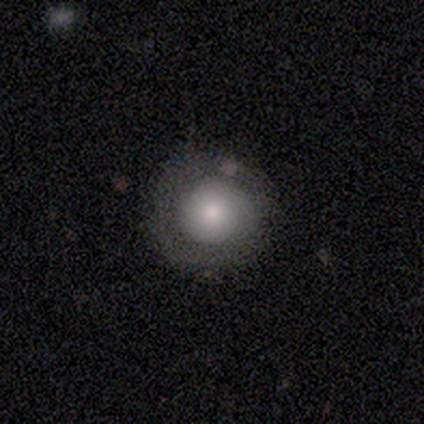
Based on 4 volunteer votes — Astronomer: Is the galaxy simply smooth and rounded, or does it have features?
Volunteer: smooth — 100%.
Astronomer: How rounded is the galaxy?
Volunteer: round — 100%.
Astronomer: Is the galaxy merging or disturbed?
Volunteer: none — 75%.